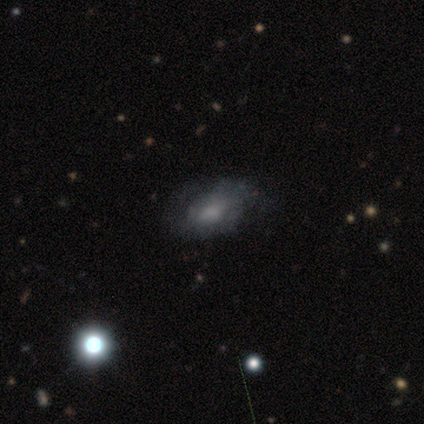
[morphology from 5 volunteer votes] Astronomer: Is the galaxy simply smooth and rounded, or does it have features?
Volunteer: smooth — 40%, tied with featured or disk at 40%.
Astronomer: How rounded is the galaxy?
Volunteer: in between — 100%.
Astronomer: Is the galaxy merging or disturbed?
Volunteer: minor disturbance — 75%.